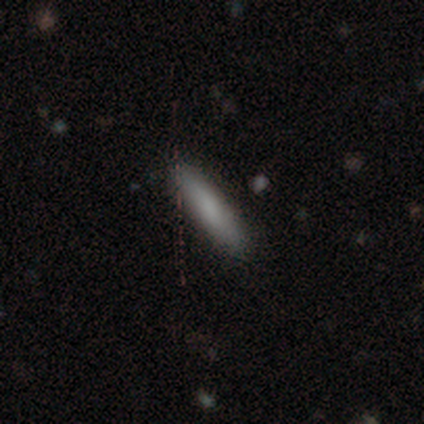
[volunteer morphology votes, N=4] smooth 100%, featured or disk 0%, star or artifact 0%. Down the decision tree: how rounded — cigar-shaped (100%); merging — none (75%).